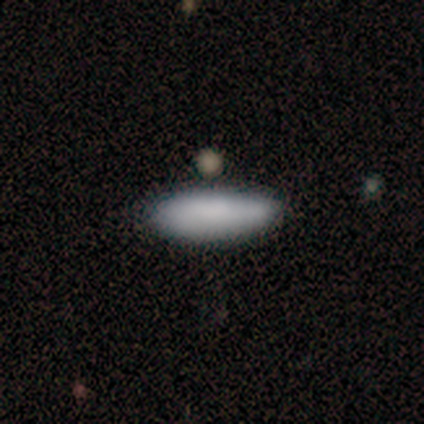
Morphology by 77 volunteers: Smooth or featured? 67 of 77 (87%) said smooth. How rounded? 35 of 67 (52%) said cigar-shaped. Merging? 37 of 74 (50%) said none.